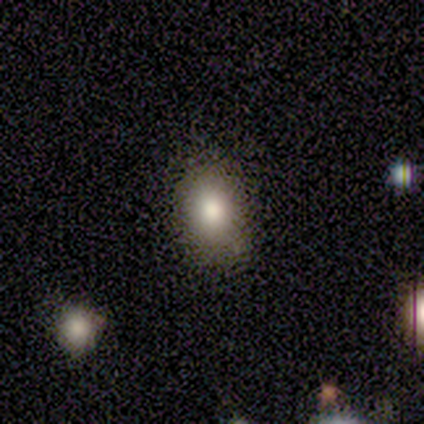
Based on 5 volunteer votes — Smooth or featured? 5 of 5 (100%) said smooth. How rounded? 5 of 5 (100%) said in between. Merging? 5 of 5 (100%) said none.